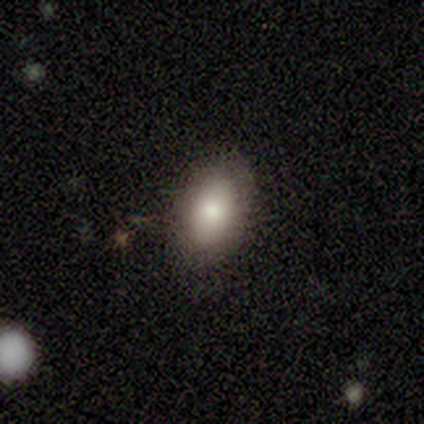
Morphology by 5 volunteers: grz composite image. It shows a smooth galaxy with no disk features (80%) that is in between round and cigar-shaped (100%). Merging: none (100%).